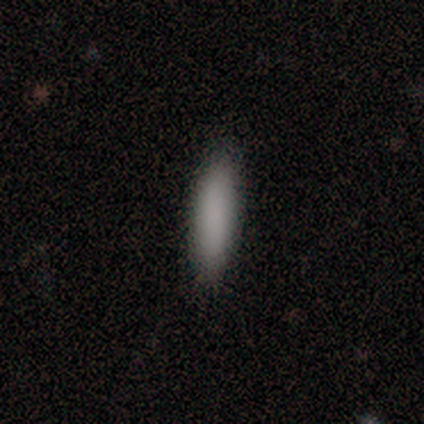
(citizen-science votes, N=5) smooth_or_featured: smooth (p=0.80) [alt: star or artifact p=0.20]
how_rounded: cigar-shaped (p=0.75) [alt: in between p=0.25]
merging: none (p=0.50) [alt: minor disturbance p=0.25]